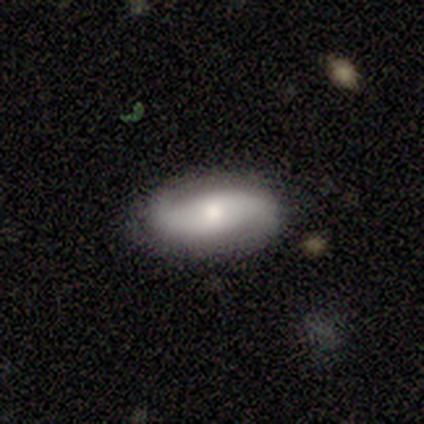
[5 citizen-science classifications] Volunteers were most divided on "smooth or featured" (2-way tie): smooth: 40%, featured or disk: 40%, star or artifact: 20%. More confident: how rounded — in between (100%); merging — none (75%).